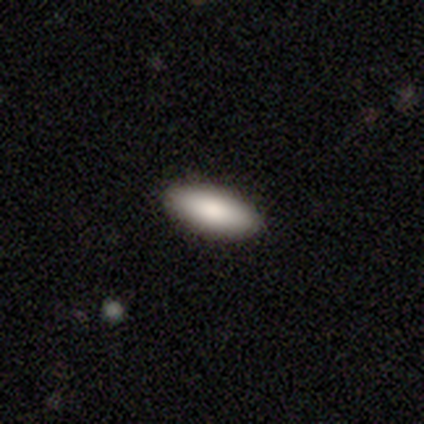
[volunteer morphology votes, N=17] This appears to be a smooth galaxy with no disk features (82%) that is in between round and cigar-shaped (93%). Merging: none (100%).